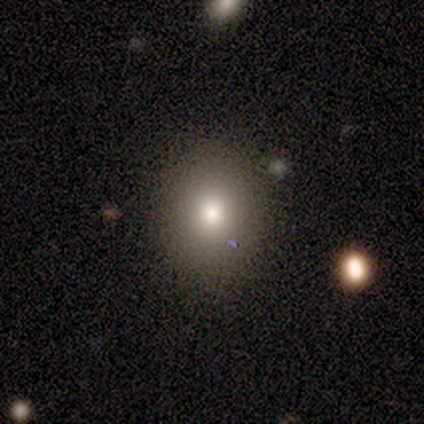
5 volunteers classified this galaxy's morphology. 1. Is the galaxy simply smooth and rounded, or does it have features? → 60% smooth, 20% featured or disk, 20% star or artifact.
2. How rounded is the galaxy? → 100% round, 0% in between, 0% cigar-shaped.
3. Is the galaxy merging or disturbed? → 100% none, 0% minor disturbance, 0% major disturbance, 0% merger.